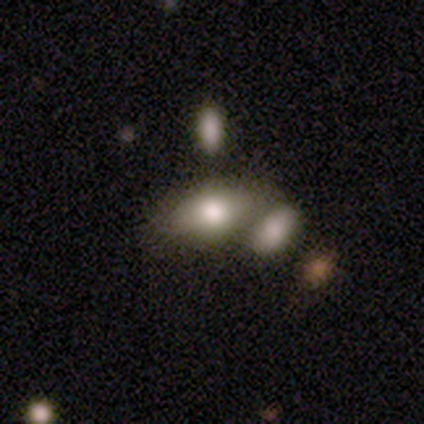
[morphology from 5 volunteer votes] A smooth galaxy with no disk features (80%) that is in between round and cigar-shaped (75%).

Vote fractions:
- Smooth or featured? smooth: 80% / star or artifact: 20% / featured or disk: 0%
- How rounded? in between: 75% / cigar-shaped: 25% / round: 0%
- Merging? minor disturbance: 50% / none: 25% / merger: 25% / major disturbance: 0%